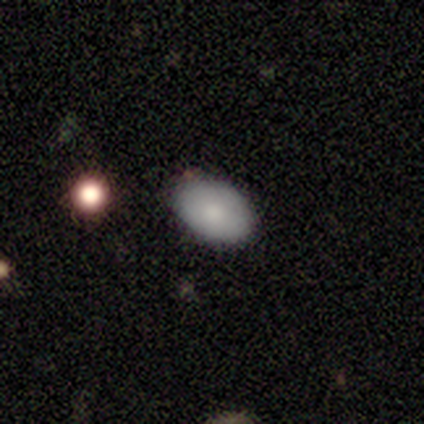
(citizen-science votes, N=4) Smooth or featured? 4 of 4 (100%) said smooth. How rounded? 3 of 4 (75%) said in between. Merging? 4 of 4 (100%) said none.